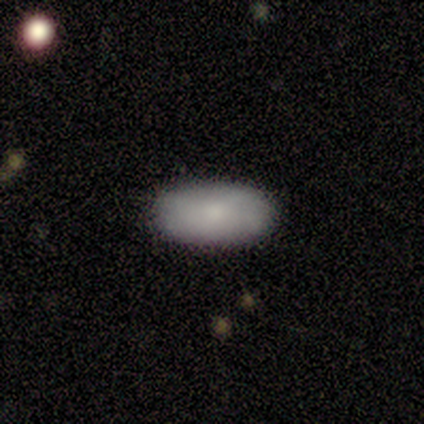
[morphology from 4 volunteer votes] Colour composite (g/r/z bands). It shows a smooth galaxy with no disk features (100%) that is in between round and cigar-shaped (100%). Merging: none (100%).